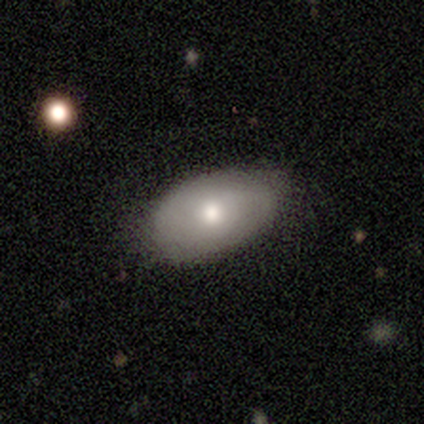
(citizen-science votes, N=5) This is clearly a smooth galaxy (100%). How rounded: clearly in between (100%). Merging: clearly none (100%).